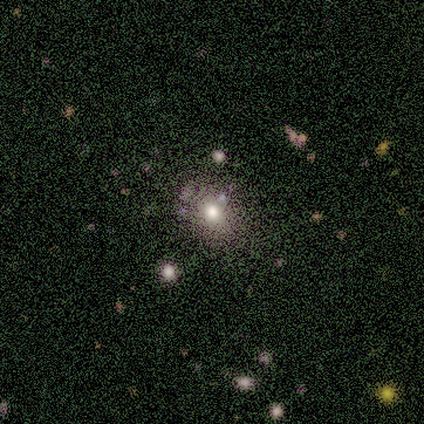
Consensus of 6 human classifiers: Smooth or featured?
  - smooth: 67% *
  - featured or disk: 17%
  - star or artifact: 17%
How rounded?
  - round: 75% *
  - in between: 25%
  - cigar-shaped: 0%
Merging?
  - none: 100% *
  - minor disturbance: 0%
  - major disturbance: 0%
  - merger: 0%